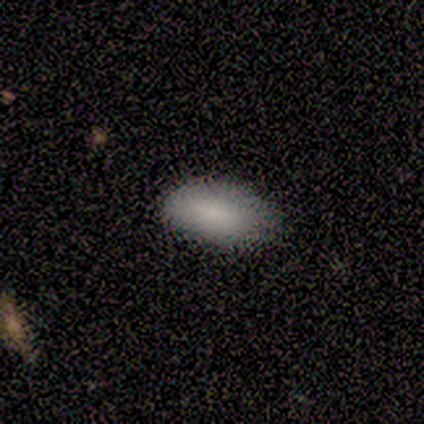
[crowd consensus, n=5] Smooth or featured? 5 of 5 (100%) said smooth. How rounded? 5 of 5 (100%) said in between. Merging? 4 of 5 (80%) said none.